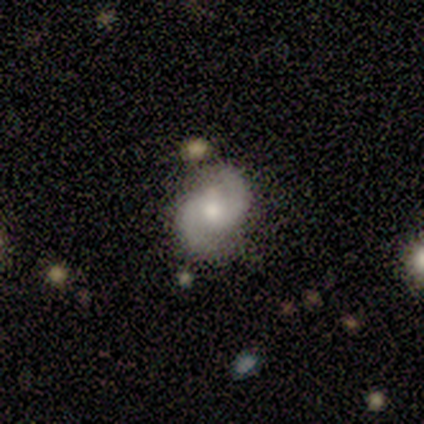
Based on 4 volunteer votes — This appears to be a featured or disk galaxy (75%) with no bar (100%), 2 (100%) medium (67%) spiral arms (100%) and a moderate central bulge (33%, tied with small and none). Merging: none (100%).